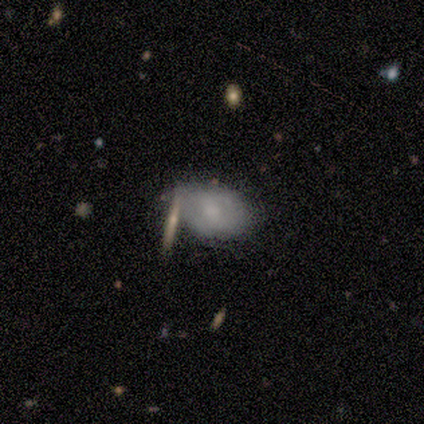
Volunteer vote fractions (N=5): Overall: smooth (80%). How rounded: in between (75%). Merging: none (60%; minor disturbance 20%).